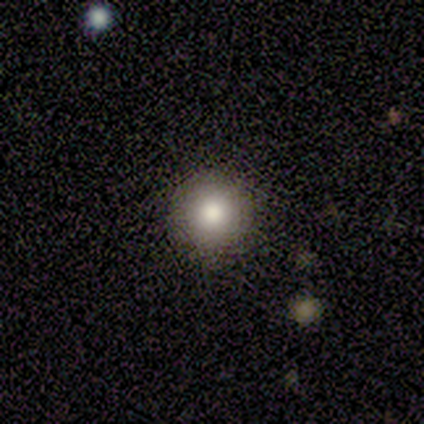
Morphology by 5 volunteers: A smooth galaxy with no disk features (100%) that is round (100%).

Vote fractions:
- Smooth or featured? smooth: 100% / featured or disk: 0% / star or artifact: 0%
- How rounded? round: 100% / in between: 0% / cigar-shaped: 0%
- Merging? none: 100% / minor disturbance: 0% / major disturbance: 0% / merger: 0%